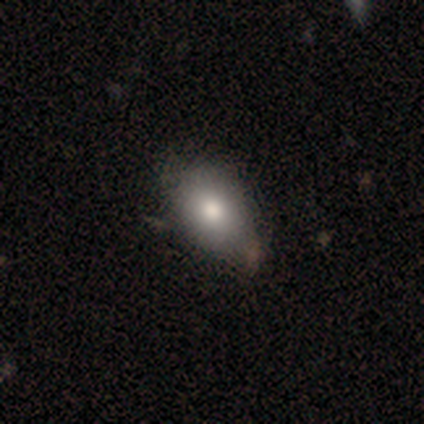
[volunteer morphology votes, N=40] This appears to be a smooth galaxy with no disk features (82%) that is in between round and cigar-shaped (88%). Merging: none (50%).